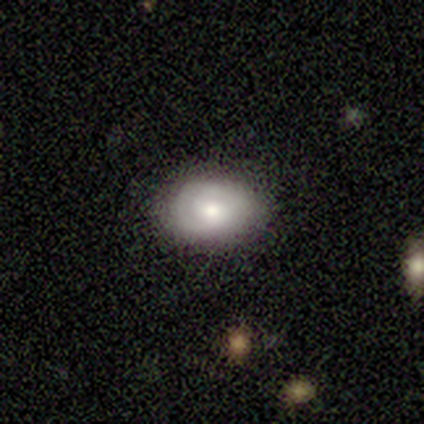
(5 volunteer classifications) Smooth or featured? smooth (80%)
How rounded? in between (75%)
Merging? none (60%)